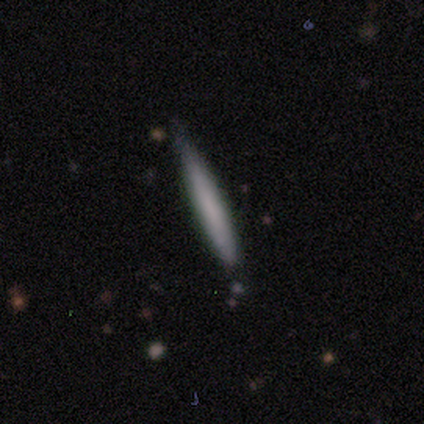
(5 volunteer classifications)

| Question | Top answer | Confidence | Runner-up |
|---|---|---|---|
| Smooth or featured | smooth | 80% | featured or disk (20%) |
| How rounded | cigar-shaped | 100% | — |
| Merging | none | 80% | minor disturbance (20%) |